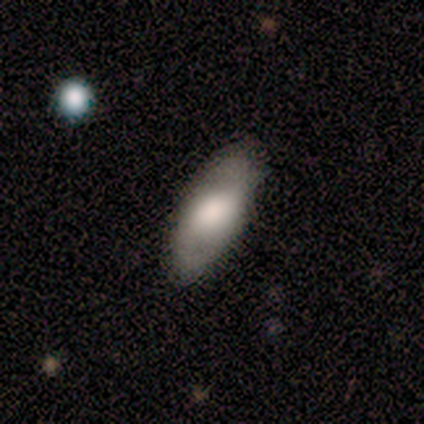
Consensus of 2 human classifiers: Smooth or featured? 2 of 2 (100%) said featured or disk. Edge-on disk? 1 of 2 (50%, tied with no) said yes. Edge-on bulge? 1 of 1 (100%) said rounded. Merging? 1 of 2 (50%, tied with merger) said none.